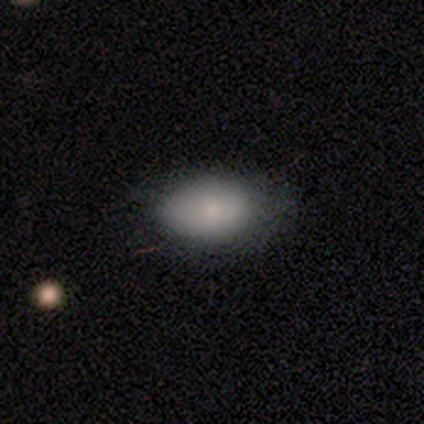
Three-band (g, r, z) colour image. It shows a smooth galaxy with no disk features (86%) that is in between round and cigar-shaped (97%). Merging: none (72%).